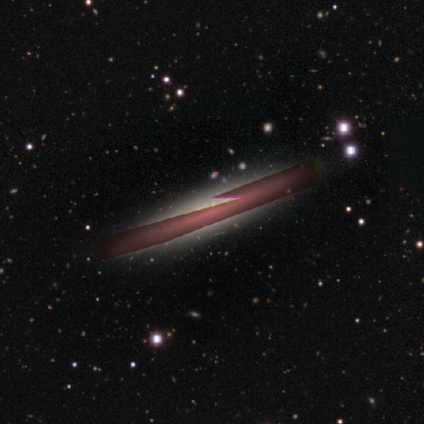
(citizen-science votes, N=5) Smooth or featured: star or artifact — 60% (featured or disk — 40%)